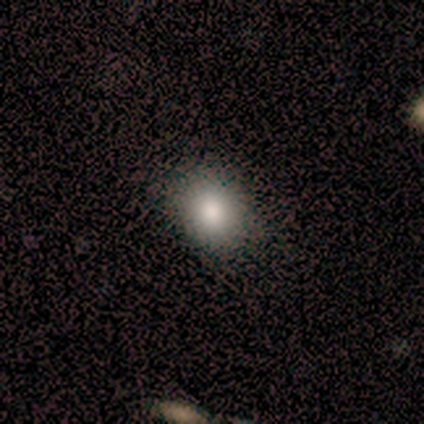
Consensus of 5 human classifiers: smooth_or_featured: smooth (p=0.80) [alt: featured or disk p=0.20]
how_rounded: round (p=0.75) [alt: in between p=0.25]
merging: none (p=1.00)